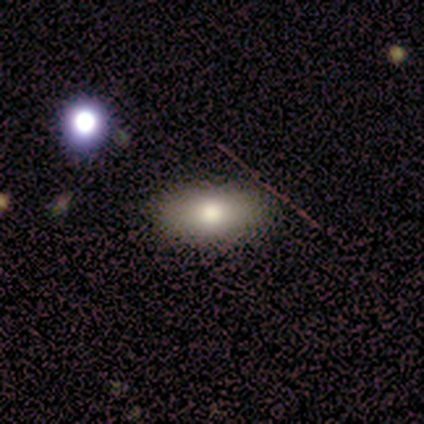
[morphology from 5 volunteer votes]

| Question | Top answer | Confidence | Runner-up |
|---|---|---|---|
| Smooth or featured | smooth | 80% | star or artifact (20%) |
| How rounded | in between | 75% | cigar-shaped (25%) |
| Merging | none | 75% | minor disturbance (25%) |